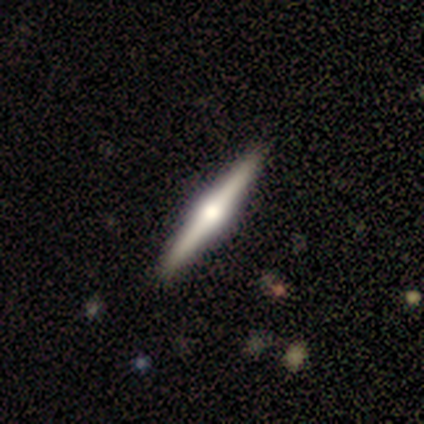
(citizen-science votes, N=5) Overall: featured or disk (100%). Edge-on disk: yes (100%). Edge-on bulge: rounded (100%). Merging: none (100%).